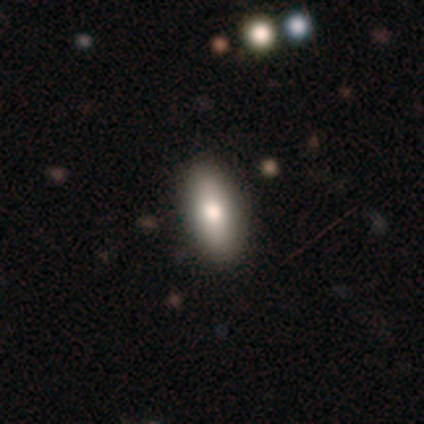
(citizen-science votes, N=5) A smooth galaxy with no disk features (100%) that is in between round and cigar-shaped (100%). Merging: none (80%).